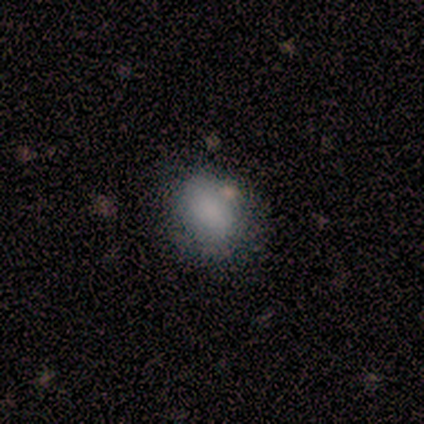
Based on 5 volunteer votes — smooth-or-featured: smooth: 100% | featured or disk: 0% | star or artifact: 0%
  how-rounded: in between: 60% | round: 40% | cigar-shaped: 0%
  merging: none: 80% | minor disturbance: 20% | major disturbance: 0% | merger: 0%